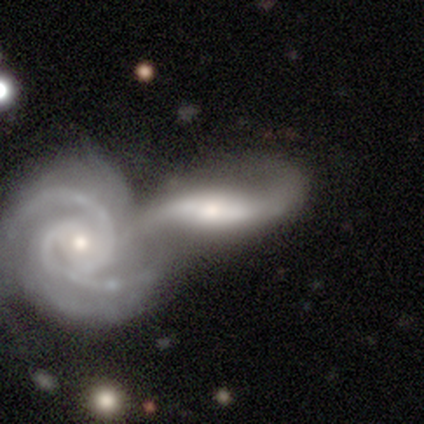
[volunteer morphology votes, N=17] This is clearly a featured or disk galaxy (82%). It is clearly not viewed edge-on (93%). Bar: possibly weak (46%). Spiral arm pattern: clearly yes (92%). Spiral arm count: clearly 2 (83%). Spiral winding: marginally medium (42%, tied with loose). Central bulge: likely moderate (62%). Merging: clearly merger (88%).